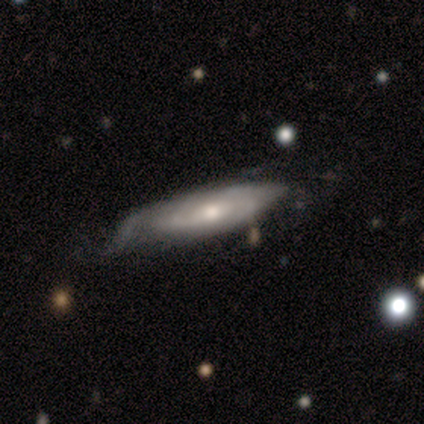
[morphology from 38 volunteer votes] featured or disk 71%, smooth 29%, star or artifact 0%. Down the decision tree: edge-on disk — no (74%); bar — no (80%); spiral arms — yes (85%); spiral arm count — can't tell (71%); spiral winding — tight (47%, tied with medium); bulge size — moderate (65%); merging — minor disturbance (42%).